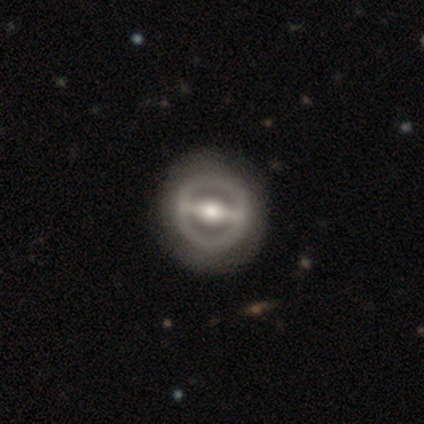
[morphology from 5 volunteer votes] type=featured or disk (80%); edge-on=no (100%); bar=strong (75%); spiral arms=no (75%); bulge=moderate (100%); merging=none (100%).